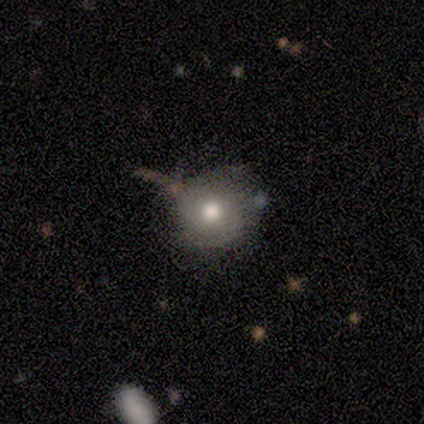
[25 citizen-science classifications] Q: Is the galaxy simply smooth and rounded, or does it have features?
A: smooth — 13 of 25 (52%).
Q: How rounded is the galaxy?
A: round — 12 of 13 (92%).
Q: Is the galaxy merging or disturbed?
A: none — 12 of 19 (63%).